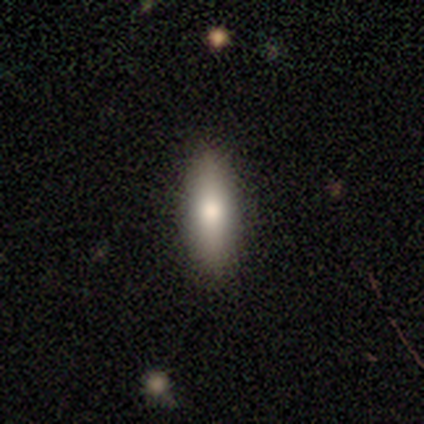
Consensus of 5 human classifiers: Morphology: type=smooth (80%); roundness=cigar-shaped (50%); merging=none (100%).